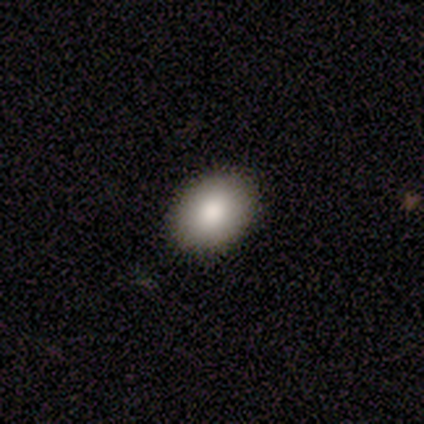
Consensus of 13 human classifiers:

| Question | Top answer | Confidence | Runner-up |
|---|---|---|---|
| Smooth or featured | smooth | 77% | featured or disk (23%) |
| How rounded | in between | 70% | round (30%) |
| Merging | none | 92% | minor disturbance (8%) |